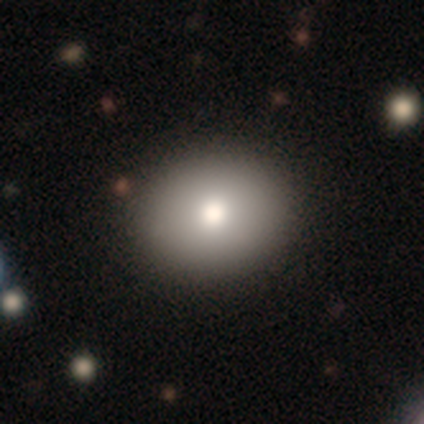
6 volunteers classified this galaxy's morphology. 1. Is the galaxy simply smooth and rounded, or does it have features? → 67% smooth, 17% featured or disk, 17% star or artifact.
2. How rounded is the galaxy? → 75% round, 25% in between, 0% cigar-shaped.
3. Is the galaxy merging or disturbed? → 80% none, 20% major disturbance, 0% minor disturbance, 0% merger.